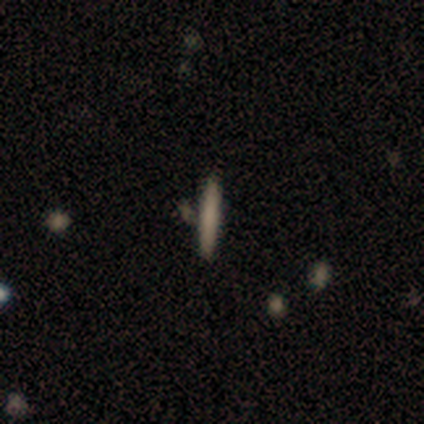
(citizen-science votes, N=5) smooth 60%, featured or disk 20%, star or artifact 20%. Down the decision tree: how rounded — cigar-shaped (100%); merging — none (50%).